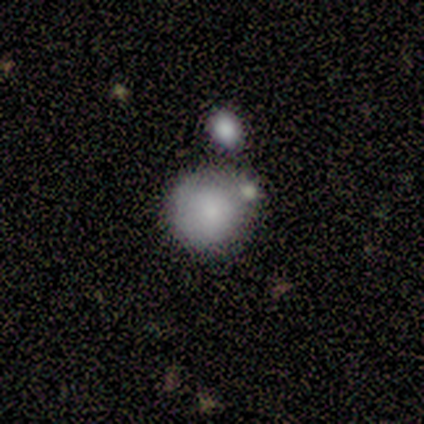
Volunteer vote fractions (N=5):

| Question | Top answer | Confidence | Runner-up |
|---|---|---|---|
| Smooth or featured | smooth | 80% | featured or disk (20%) |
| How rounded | round | 100% | — |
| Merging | none | 80% | merger (20%) |